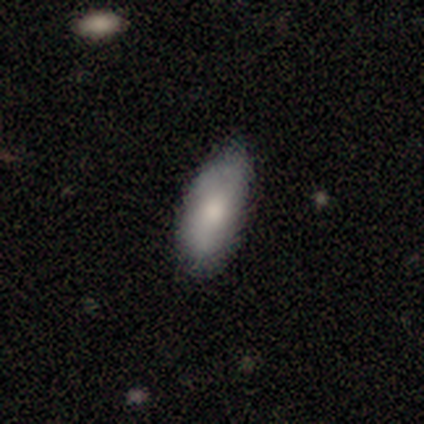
Smooth or featured: smooth — 80% (featured or disk — 17%)
How rounded: in between — 93% (cigar-shaped — 7%)
Merging: none — 73% (minor disturbance — 21%)